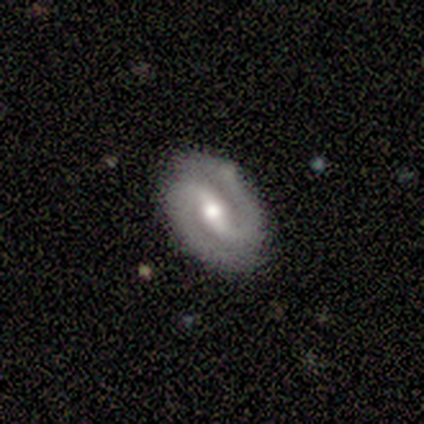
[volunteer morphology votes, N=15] Smooth or featured? featured or disk (87%)
Edge-on disk? no (92%)
Bar? weak (42%, tied with no)
Spiral arms? yes (92%)
Spiral winding? medium (64%)
Spiral arm count? 2 (91%)
Bulge size? moderate (58%)
Merging? none (93%)